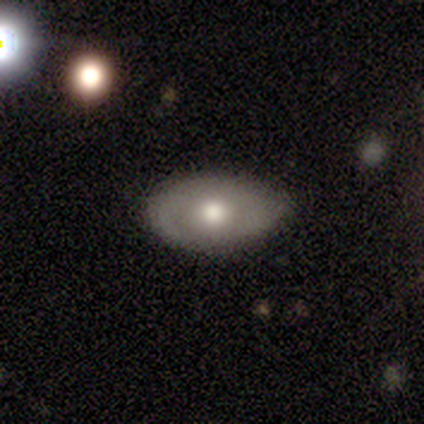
Smooth or featured? 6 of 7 (86%) said smooth. How rounded? 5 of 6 (83%) said in between. Merging? 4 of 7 (57%) said minor disturbance.